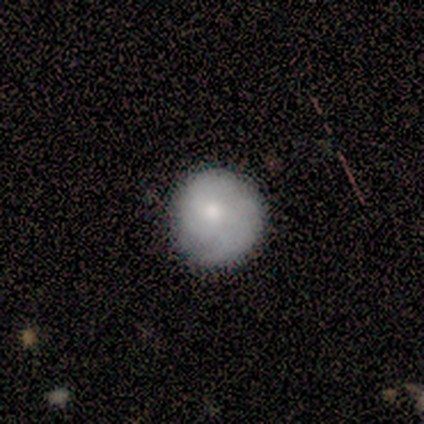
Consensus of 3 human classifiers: Smooth or featured?
  - smooth: 100% *
  - featured or disk: 0%
  - star or artifact: 0%
How rounded?
  - round: 100% *
  - in between: 0%
  - cigar-shaped: 0%
Merging?
  - none: 100% *
  - minor disturbance: 0%
  - major disturbance: 0%
  - merger: 0%